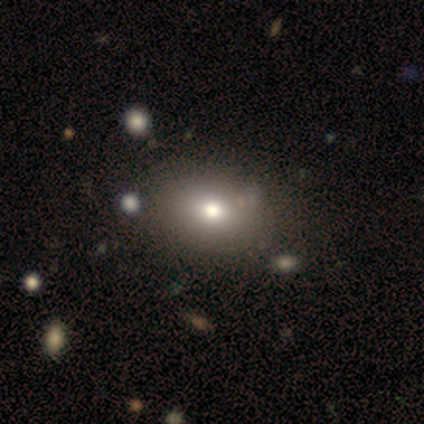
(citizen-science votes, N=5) smooth 40% (tied), star or artifact 40% (tied), featured or disk 20%. Down the decision tree: how rounded — in between (100%); merging — none (100%).